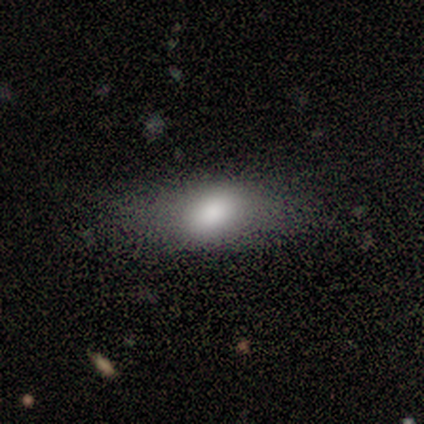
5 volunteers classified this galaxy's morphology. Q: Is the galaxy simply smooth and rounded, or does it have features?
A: smooth — 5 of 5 (100%).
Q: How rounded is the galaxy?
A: in between — 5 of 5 (100%).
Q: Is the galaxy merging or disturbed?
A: none — 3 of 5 (60%).